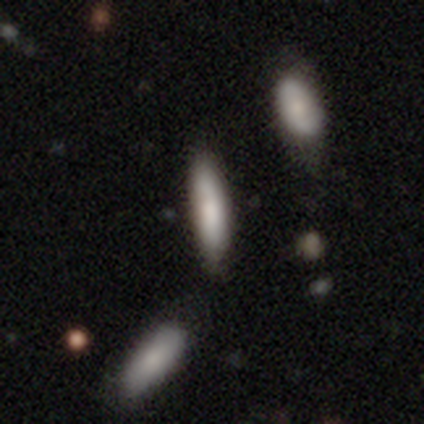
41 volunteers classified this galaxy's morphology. Smooth or featured? smooth (73%)
How rounded? cigar-shaped (67%)
Merging? none (76%)